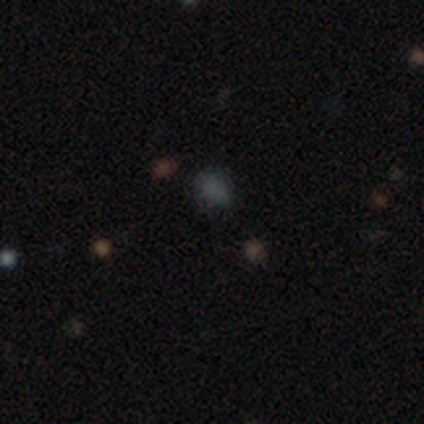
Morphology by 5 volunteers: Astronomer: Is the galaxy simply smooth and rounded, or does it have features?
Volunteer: smooth — 100%.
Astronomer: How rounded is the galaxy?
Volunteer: in between — 80%.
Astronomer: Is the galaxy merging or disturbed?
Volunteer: none — 80%.